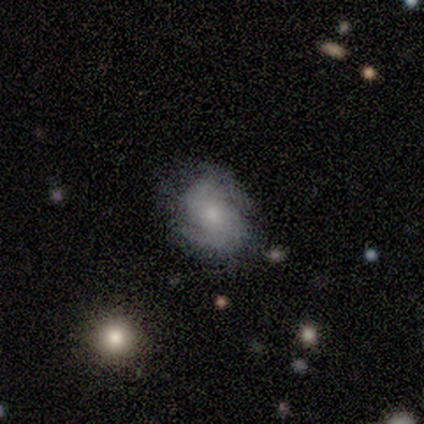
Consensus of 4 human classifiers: Smooth or featured: featured or disk — 75% (star or artifact — 25%)
Edge-on disk: no — 100%
Bar: no — 67% (weak — 33%)
Spiral arms: yes — 67% (no — 33%)
Spiral winding: tight — 50% (tied with loose — 50%)
Spiral arm count: 2 — 100%
Bulge size: small — 100%
Merging: minor disturbance — 67% (none — 33%)